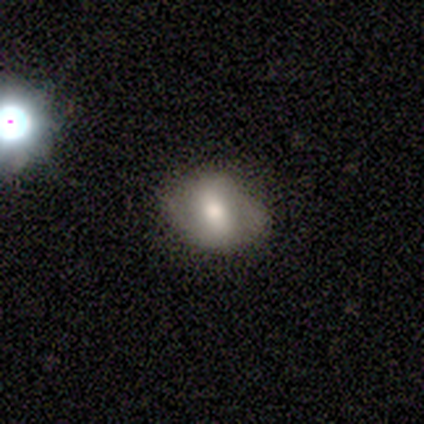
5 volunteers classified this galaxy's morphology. smooth_or_featured: featured or disk (p=0.60) [alt: smooth p=0.40]
disk_edge_on: no (p=1.00)
bar: strong (p=0.33) [tied with: weak p=0.33, no p=0.33]
has_spiral_arms: no (p=0.67) [alt: yes p=0.33]
bulge_size: moderate (p=1.00)
merging: none (p=0.80) [alt: minor disturbance p=0.20]